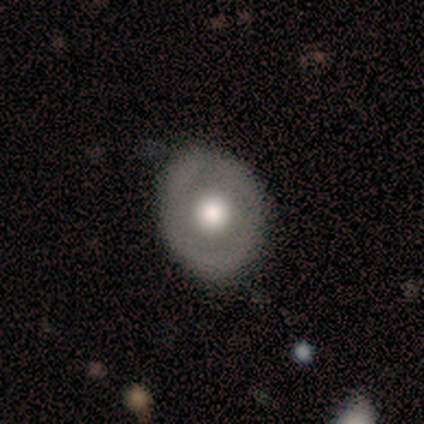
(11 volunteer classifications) Overall: featured or disk (55%; smooth 36%). Edge-on disk: no (100%). Bar: no (100%). Spiral arms: no (100%). Bulge size: large (67%). Merging: none (90%).